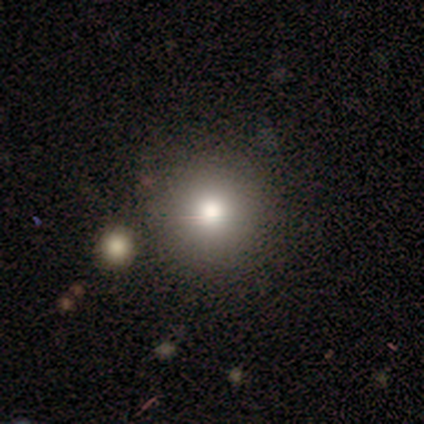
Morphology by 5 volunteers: Smooth or featured: smooth — 100%
How rounded: round — 100%
Merging: none — 100%